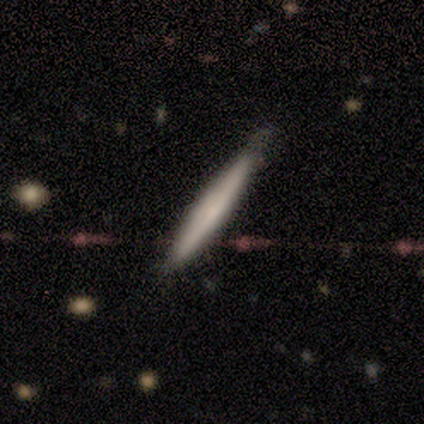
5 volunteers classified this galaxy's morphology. Overall: smooth (60%; featured or disk 40%). How rounded: cigar-shaped (100%). Merging: none (60%; minor disturbance 40%).